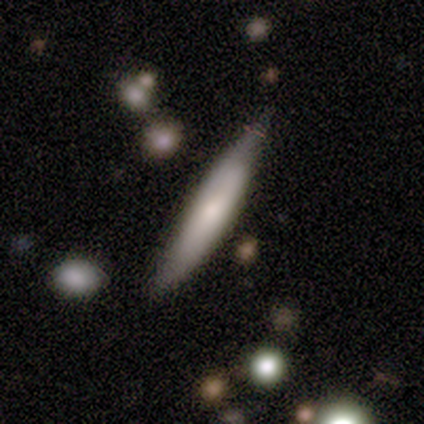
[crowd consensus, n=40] smooth 55%, featured or disk 42%, star or artifact 2%. Down the decision tree: how rounded — cigar-shaped (82%); merging — none (62%).